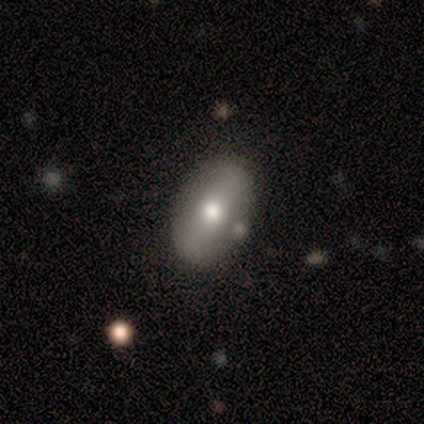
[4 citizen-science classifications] A featured or disk galaxy (75%) with a strong bar (33%, tied with weak and no), no spiral arms (100%) and a moderate central bulge (100%).

Vote fractions:
- Smooth or featured? featured or disk: 75% / smooth: 25% / star or artifact: 0%
- Edge-on disk? no: 100% / yes: 0%
- Bar? strong: 33% (tied) / weak: 33% (tied) / no: 33% (tied)
- Spiral arms? no: 100% / yes: 0%
- Bulge size? moderate: 100% / dominant: 0% / large: 0% / small: 0% / none: 0%
- Merging? none: 50% (tied) / minor disturbance: 50% (tied) / major disturbance: 0% / merger: 0%